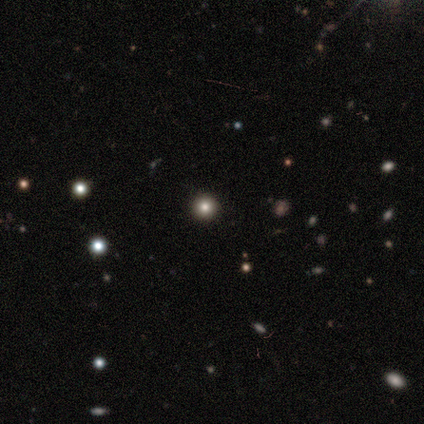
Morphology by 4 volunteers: This appears to be a star or artifact, not a galaxy (75%).